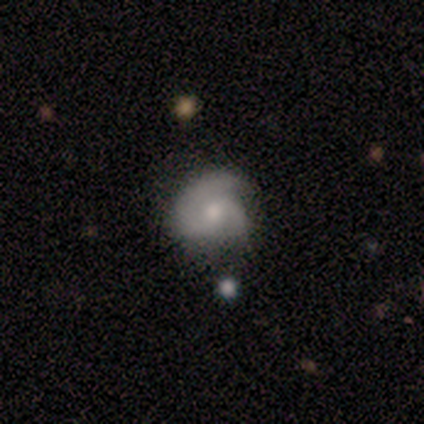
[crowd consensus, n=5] Volunteers were most divided on "bulge size" (3-way tie): large: 33%, moderate: 33%, small: 33%, dominant: 0%, none: 0%. More confident: bar — weak (100%); spiral arms — yes (100%); spiral arm count — 2 (100%); smooth or featured — featured or disk (80%); merging — none (80%); edge-on disk — no (75%); spiral winding — medium (67%).